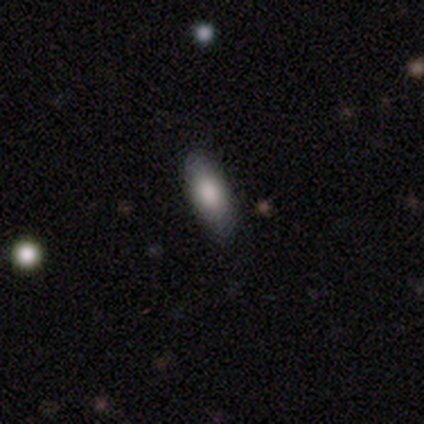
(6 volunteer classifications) A smooth galaxy with no disk features (100%) that is in between round and cigar-shaped (83%). Merging: none (100%).